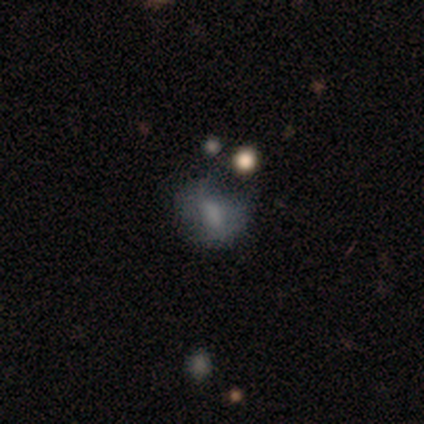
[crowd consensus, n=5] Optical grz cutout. It shows a smooth galaxy with no disk features (60%) that is in between round and cigar-shaped (100%). Merging: none (50%).